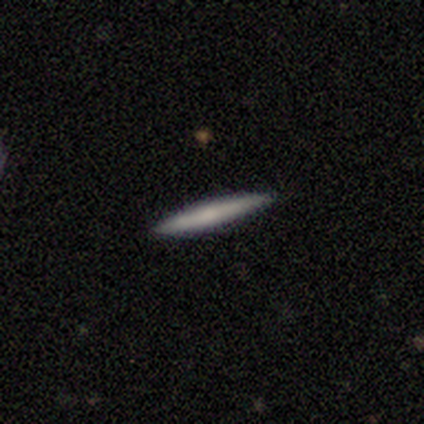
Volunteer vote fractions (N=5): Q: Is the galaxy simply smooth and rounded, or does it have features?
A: smooth — 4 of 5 (80%).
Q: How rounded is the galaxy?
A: cigar-shaped — 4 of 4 (100%).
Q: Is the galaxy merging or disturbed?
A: none — 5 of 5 (100%).